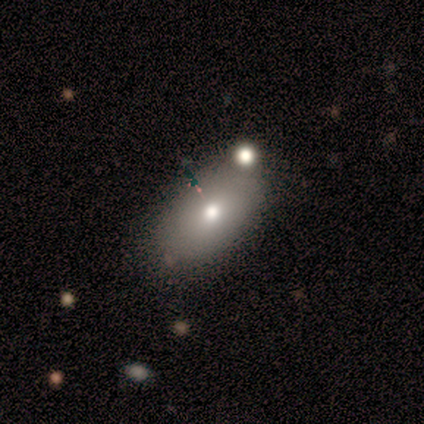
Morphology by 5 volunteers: Smooth or featured? 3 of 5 (60%) said smooth. How rounded? 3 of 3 (100%) said in between. Merging? 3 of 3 (100%) said none.